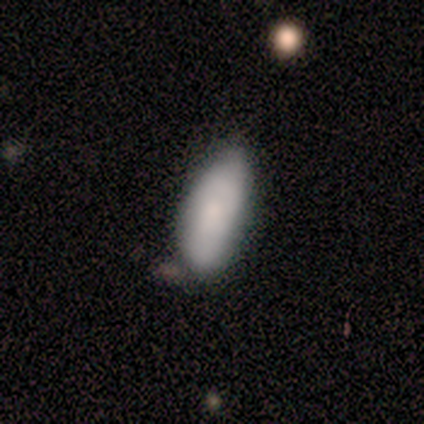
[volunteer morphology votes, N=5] smooth-or-featured: smooth: 100% | featured or disk: 0% | star or artifact: 0%
  how-rounded: in between: 60% | cigar-shaped: 40% | round: 0%
  merging: none: 60% | minor disturbance: 40% | major disturbance: 0% | merger: 0%